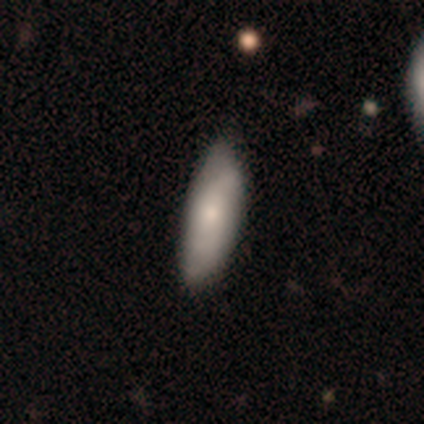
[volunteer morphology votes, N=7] A smooth galaxy with no disk features (71%) that is in between round and cigar-shaped (100%). Merging: none (86%).